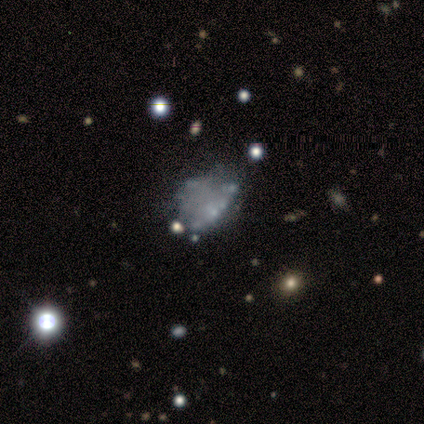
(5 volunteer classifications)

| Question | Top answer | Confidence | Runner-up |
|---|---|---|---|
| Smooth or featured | featured or disk | 80% | star or artifact (20%) |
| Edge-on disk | no | 75% | yes (25%) |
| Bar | no | 100% | — |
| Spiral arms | no | 67% | yes (33%) |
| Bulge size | none | 67% | moderate (33%) |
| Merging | none | 50% | major disturbance (25%) |